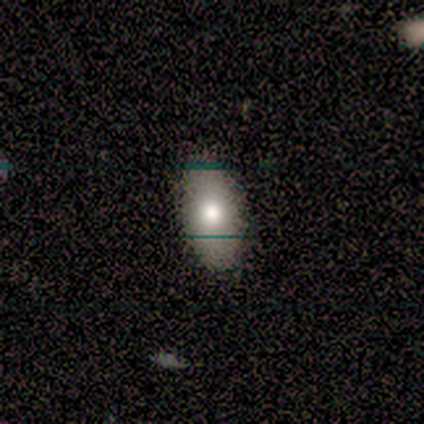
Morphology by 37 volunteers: Q: Smooth or featured?
A: smooth (57%); runner-up: featured or disk (35%)
Q: How rounded?
A: in between (100%)
Q: Merging?
A: none (88%); runner-up: minor disturbance (9%)